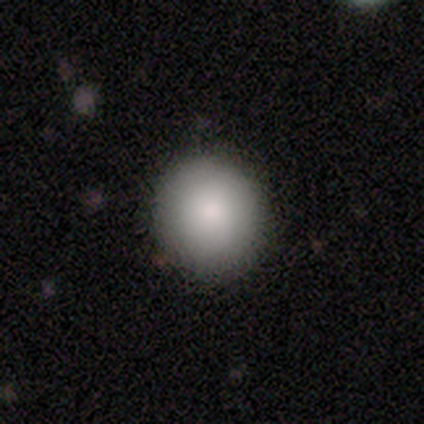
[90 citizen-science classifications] This appears to be a smooth galaxy with no disk features (82%) that is round (93%). Merging: none (91%).